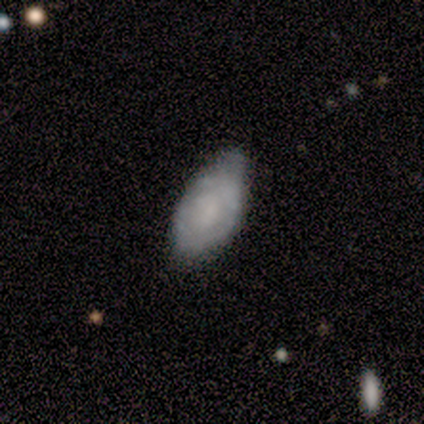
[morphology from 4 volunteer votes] This is likely a featured or disk galaxy (75%). It is clearly not viewed edge-on (100%). Bar: likely no (67%). Spiral arm pattern: likely no (67%). Central bulge: marginally large (33%, tied with moderate and none). Merging: possibly none (50%, tied with minor disturbance).